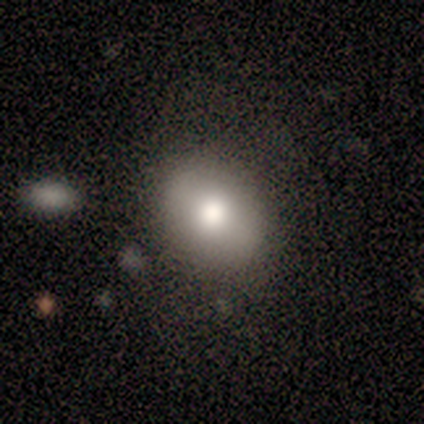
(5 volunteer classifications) Smooth or featured? smooth (80%)
How rounded? round (75%)
Merging? none (80%)